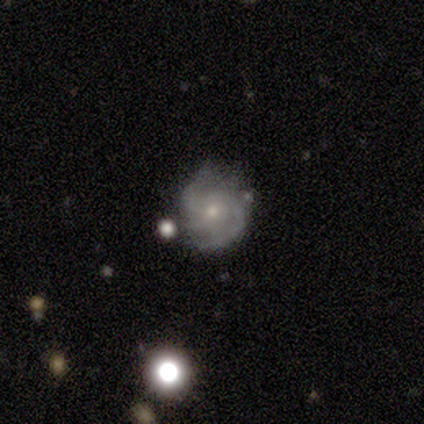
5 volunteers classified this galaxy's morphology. Smooth or featured?
  - featured or disk: 60% *
  - smooth: 20%
  - star or artifact: 20%
Edge-on disk?
  - no: 100% *
  - yes: 0%
Bar?
  - no: 100% *
  - strong: 0%
  - weak: 0%
Spiral arms?
  - yes: 100% *
  - no: 0%
Spiral winding?
  - tight: 67% *
  - medium: 33%
  - loose: 0%
Spiral arm count?
  - 3: 33% * (tied)
  - 4: 33% * (tied)
  - can't tell: 33% * (tied)
  - 1: 0%
  - 2: 0%
  - more than 4: 0%
Bulge size?
  - small: 67% *
  - moderate: 33%
  - dominant: 0%
  - large: 0%
  - none: 0%
Merging?
  - none: 75% *
  - merger: 25%
  - minor disturbance: 0%
  - major disturbance: 0%